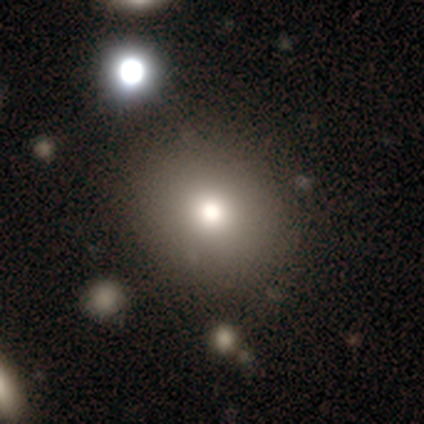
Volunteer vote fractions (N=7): This is likely a smooth galaxy (71%). How rounded: clearly round (80%). Merging: likely none (71%).